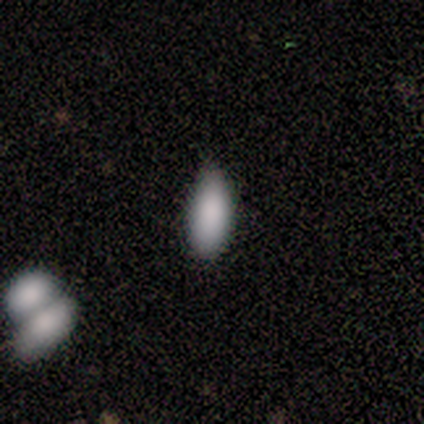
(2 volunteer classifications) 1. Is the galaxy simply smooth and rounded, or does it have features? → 100% smooth, 0% featured or disk, 0% star or artifact.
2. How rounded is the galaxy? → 50% in between (tied), 50% cigar-shaped (tied), 0% round.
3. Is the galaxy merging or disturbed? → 100% none, 0% minor disturbance, 0% major disturbance, 0% merger.